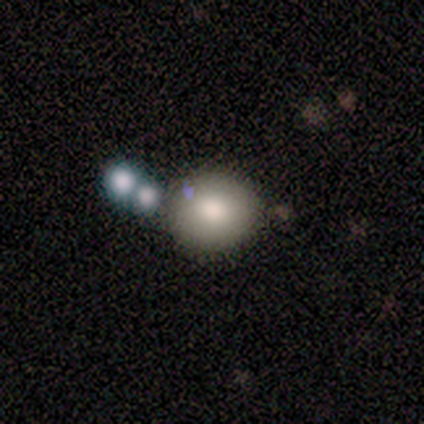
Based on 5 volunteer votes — Q: Smooth or featured?
A: smooth (80%); runner-up: star or artifact (20%)
Q: How rounded?
A: round (100%)
Q: Merging?
A: none (50%); runner-up: minor disturbance (25%)